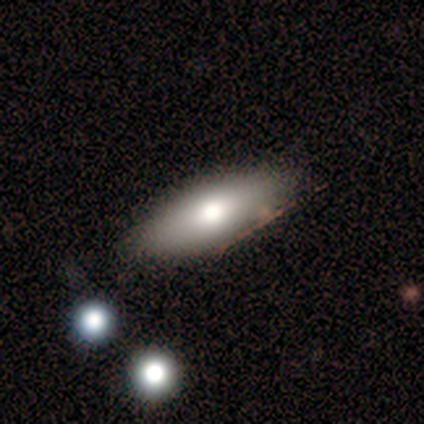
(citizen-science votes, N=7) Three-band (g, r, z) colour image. It shows a smooth galaxy with no disk features (100%) that is in between round and cigar-shaped (57%). Merging: none (86%).